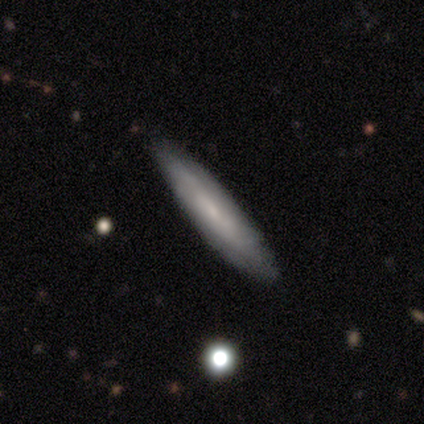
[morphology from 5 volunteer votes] Smooth or featured: smooth — 80% (featured or disk — 20%)
How rounded: cigar-shaped — 75% (in between — 25%)
Merging: none — 60% (minor disturbance — 20%)